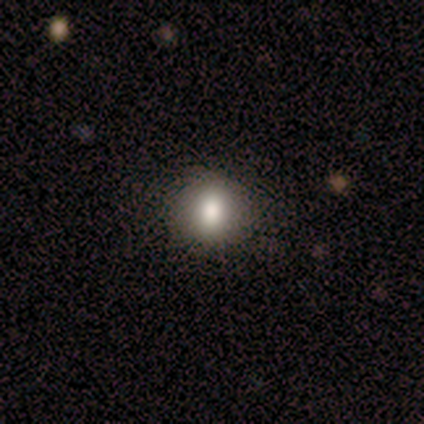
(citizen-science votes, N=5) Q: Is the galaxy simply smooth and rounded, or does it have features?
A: smooth — 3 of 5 (60%).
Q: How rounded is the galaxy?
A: round — 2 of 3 (67%).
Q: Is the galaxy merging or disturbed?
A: none — 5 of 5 (100%).